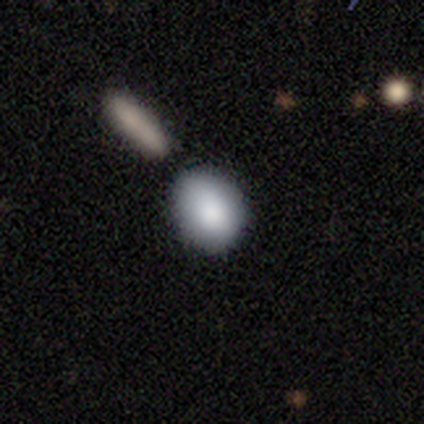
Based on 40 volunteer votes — Q: Smooth or featured?
A: smooth (80%); runner-up: featured or disk (10%)
Q: How rounded?
A: round (50%); runner-up: in between (47%)
Q: Merging?
A: none (64%); runner-up: minor disturbance (17%)